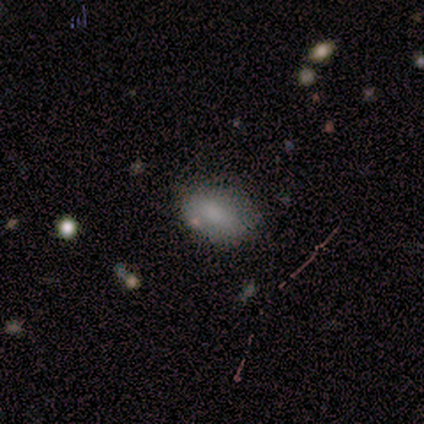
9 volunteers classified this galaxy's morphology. Overall: smooth (78%). How rounded: in between (100%). Merging: none (50%, tied with minor disturbance).